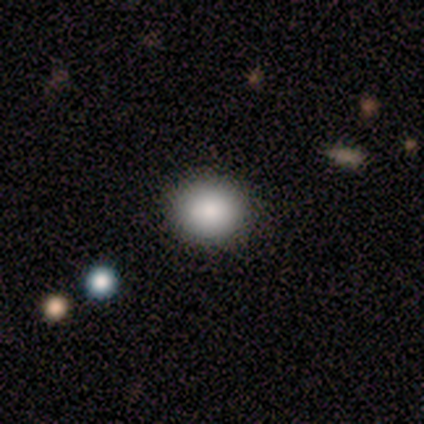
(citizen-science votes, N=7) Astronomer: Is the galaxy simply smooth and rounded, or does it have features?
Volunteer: smooth — 86%.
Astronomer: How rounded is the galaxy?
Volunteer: round — 67%.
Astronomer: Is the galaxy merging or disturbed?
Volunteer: none — 100%.